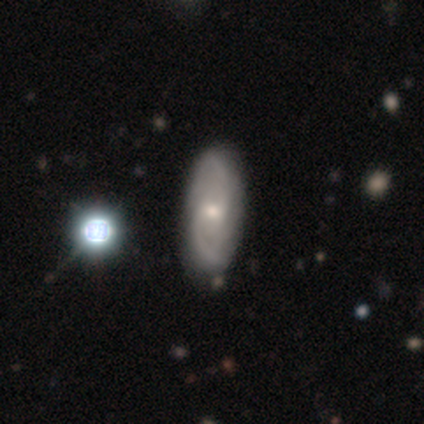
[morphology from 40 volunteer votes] Overall: featured or disk (75%). Edge-on disk: no (97%). Bar: no (59%; weak 41%). Spiral arms: yes (100%). Spiral arm count: 2 (72%). Spiral winding: medium (62%). Bulge size: moderate (48%, tied with small). Merging: none (49%).